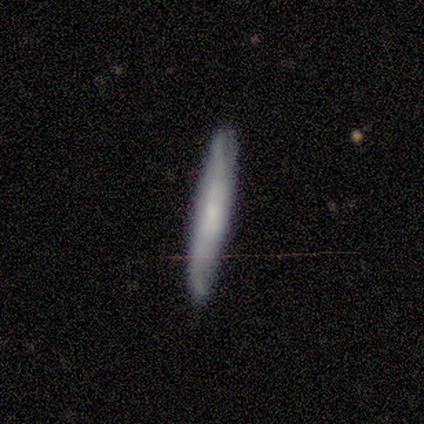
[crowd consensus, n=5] Smooth or featured? smooth (60%)
How rounded? cigar-shaped (100%)
Merging? none (80%)